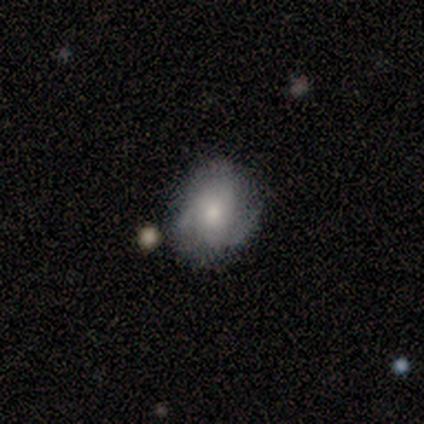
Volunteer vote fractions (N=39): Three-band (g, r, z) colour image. It shows a featured or disk galaxy (54%) with no bar (90%), tight (44%, tied with medium) spiral arms (86%) and a moderate central bulge (57%). Merging: none (43%).